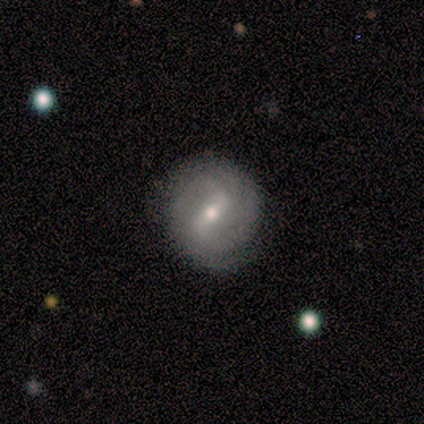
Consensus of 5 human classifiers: Smooth or featured? 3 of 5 (60%) said featured or disk. Edge-on disk? 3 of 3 (100%) said no. Bar? 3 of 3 (100%) said strong. Spiral arms? 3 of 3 (100%) said yes. Spiral winding? 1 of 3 (33%, tied with medium and loose) said tight. Spiral arm count? 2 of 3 (67%) said 2. Bulge size? 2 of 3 (67%) said small. Merging? 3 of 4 (75%) said none.